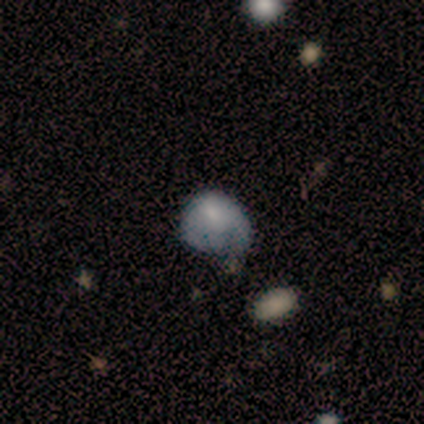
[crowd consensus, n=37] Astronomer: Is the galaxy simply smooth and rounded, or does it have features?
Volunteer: smooth — 57%.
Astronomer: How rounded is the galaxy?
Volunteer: in between — 62%.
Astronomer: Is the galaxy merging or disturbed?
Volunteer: major disturbance — 44% (runner-up: minor disturbance, 34%).